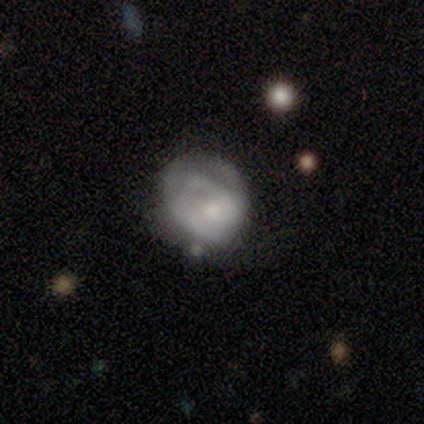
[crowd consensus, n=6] This is possibly a smooth galaxy (50%). How rounded: likely round (67%). Merging: likely minor disturbance (60%).